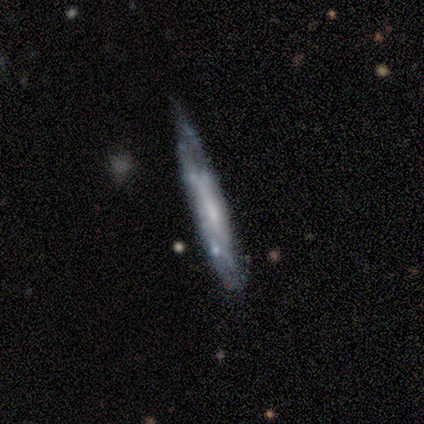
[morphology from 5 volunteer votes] type=smooth (40%, tied with featured or disk); roundness=cigar-shaped (100%); merging=minor disturbance (75%).